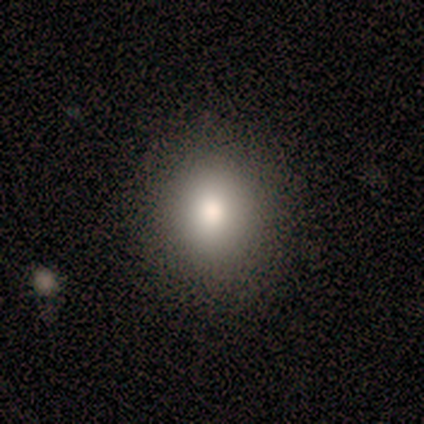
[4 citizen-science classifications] smooth_or_featured: smooth (p=1.00)
how_rounded: round (p=1.00)
merging: none (p=1.00)